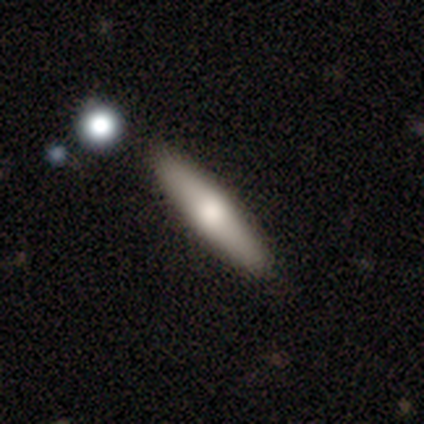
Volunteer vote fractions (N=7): Volunteers were most divided on "smooth or featured": smooth: 57%, featured or disk: 29%, star or artifact: 14%. More confident: how rounded — cigar-shaped (100%); merging — none (100%).